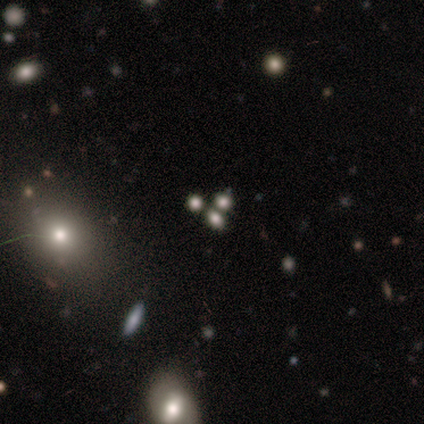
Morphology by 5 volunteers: smooth-or-featured: star or artifact: 60% | featured or disk: 40% | smooth: 0%